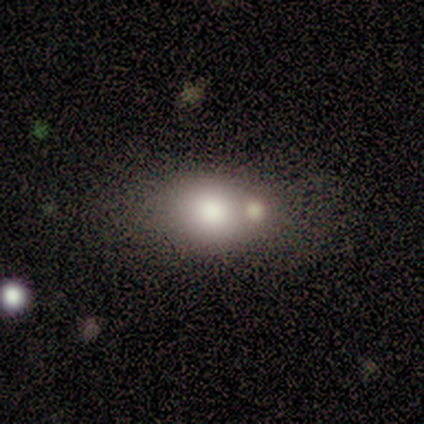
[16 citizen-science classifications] smooth_or_featured: smooth (p=0.75) [alt: featured or disk p=0.19]
how_rounded: in between (p=0.67) [alt: round p=0.33]
merging: none (p=0.40) [alt: merger p=0.27]